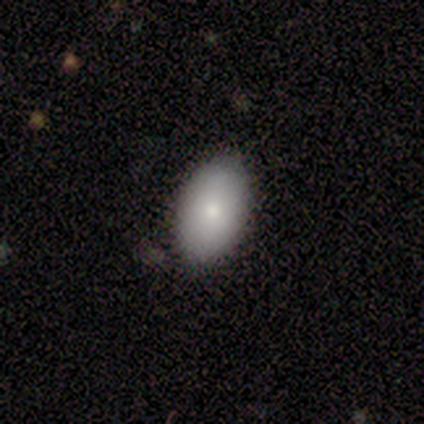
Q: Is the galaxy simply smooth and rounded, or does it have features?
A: smooth — 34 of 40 (85%).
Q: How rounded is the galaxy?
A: in between — 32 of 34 (94%).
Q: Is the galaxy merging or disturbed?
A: none — 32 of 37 (86%).